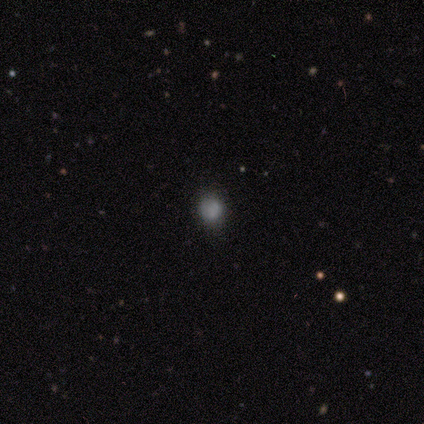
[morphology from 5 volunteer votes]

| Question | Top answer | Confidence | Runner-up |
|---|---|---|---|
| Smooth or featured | smooth | 60% | featured or disk (20%) |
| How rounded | round | 100% | — |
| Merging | none | 75% | minor disturbance (25%) |